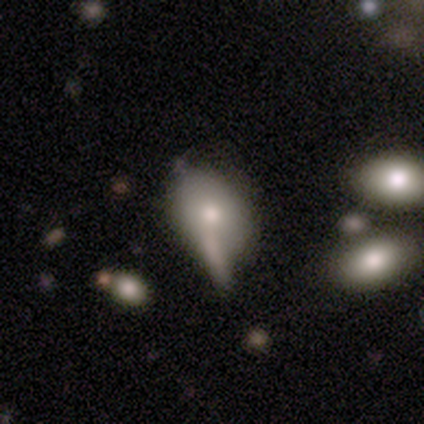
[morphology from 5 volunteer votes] Overall: smooth (60%; featured or disk 20%). How rounded: in between (100%). Merging: none (25%, tied with minor disturbance, major disturbance and merger).